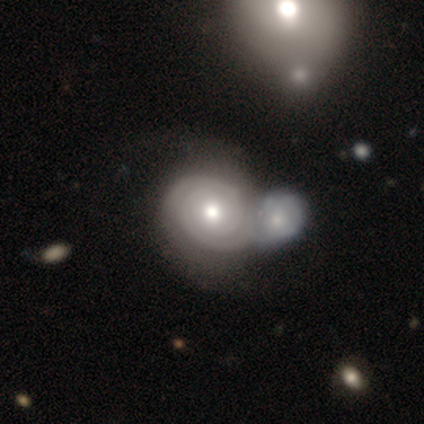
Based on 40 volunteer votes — Smooth or featured? featured or disk (85%)
Edge-on disk? no (100%)
Bar? no (65%)
Spiral arms? yes (91%)
Spiral winding? tight (94%)
Spiral arm count? 2 (58%)
Bulge size? moderate (71%)
Merging? merger (58%)